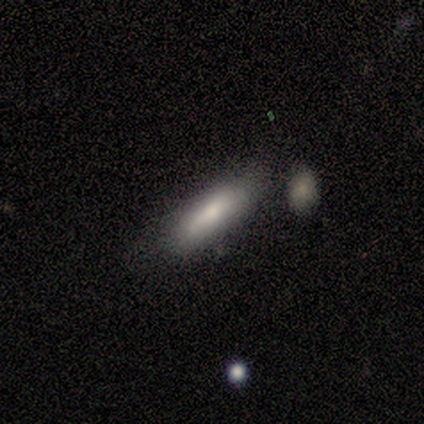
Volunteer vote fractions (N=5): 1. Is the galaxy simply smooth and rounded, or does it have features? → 80% smooth, 20% featured or disk, 0% star or artifact.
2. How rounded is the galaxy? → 75% in between, 25% cigar-shaped, 0% round.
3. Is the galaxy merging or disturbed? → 100% none, 0% minor disturbance, 0% major disturbance, 0% merger.